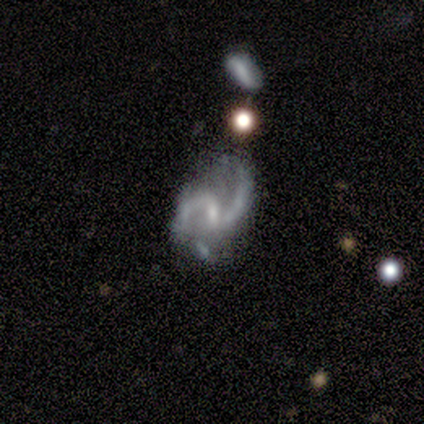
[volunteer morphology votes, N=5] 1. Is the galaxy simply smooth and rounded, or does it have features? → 80% featured or disk, 20% star or artifact, 0% smooth.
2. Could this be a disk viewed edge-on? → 100% no, 0% yes.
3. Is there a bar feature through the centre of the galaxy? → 75% weak, 25% strong, 0% no.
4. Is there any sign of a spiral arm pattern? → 100% yes, 0% no.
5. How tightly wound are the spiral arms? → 50% medium (tied), 50% loose (tied), 0% tight.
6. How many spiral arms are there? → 100% 2, 0% 1, 0% 3, 0% 4, 0% more than 4, 0% can't tell.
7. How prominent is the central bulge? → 50% small, 25% moderate, 25% none, 0% dominant, 0% large.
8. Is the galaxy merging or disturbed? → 25% none (tied), 25% minor disturbance (tied), 25% major disturbance (tied), 25% merger (tied).